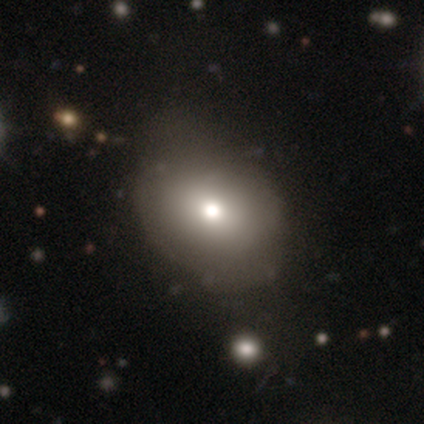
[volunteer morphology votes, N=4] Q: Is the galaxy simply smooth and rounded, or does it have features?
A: smooth — 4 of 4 (100%).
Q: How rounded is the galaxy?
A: in between — 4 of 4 (100%).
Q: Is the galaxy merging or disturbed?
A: none — 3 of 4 (75%).